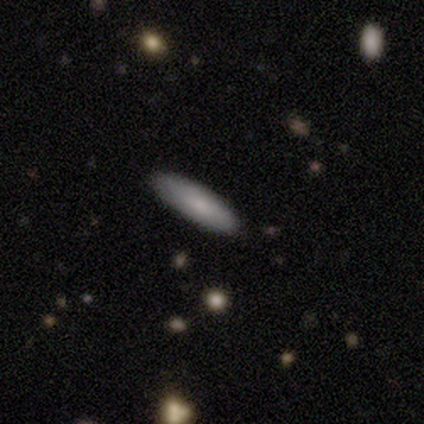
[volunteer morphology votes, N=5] Smooth or featured? smooth (80%)
How rounded? in between (50%, tied with cigar-shaped)
Merging? none (80%)